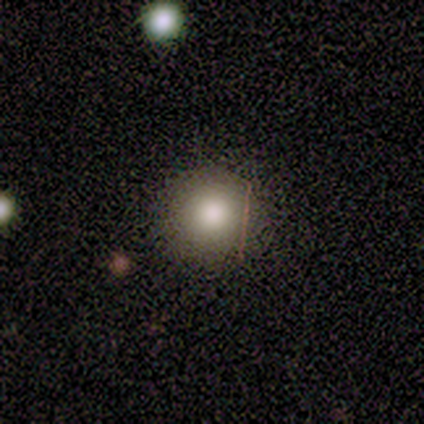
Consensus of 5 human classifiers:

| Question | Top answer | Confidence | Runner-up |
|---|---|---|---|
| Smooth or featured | smooth | 80% | star or artifact (20%) |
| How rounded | round | 75% | in between (25%) |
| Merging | none | 50% | tied: minor disturbance (50%) |